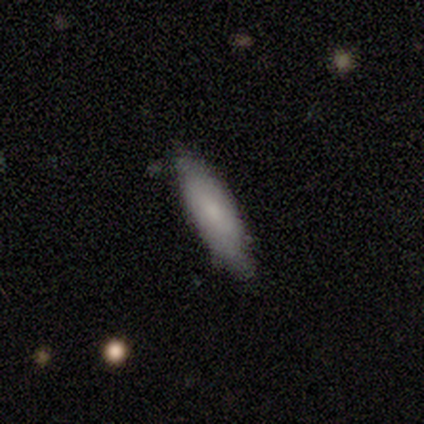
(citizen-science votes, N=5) Overall: smooth (60%; featured or disk 20%). How rounded: in between (67%; cigar-shaped 33%). Merging: none (75%).